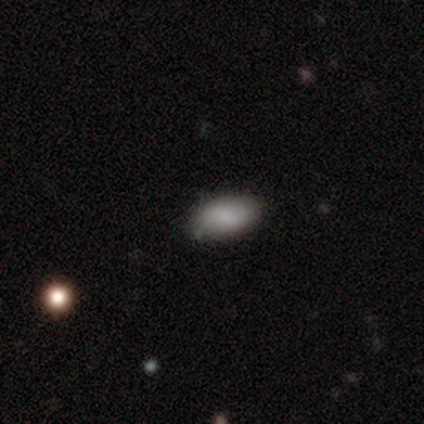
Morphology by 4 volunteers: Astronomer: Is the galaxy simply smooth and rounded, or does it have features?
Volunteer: smooth — 100%.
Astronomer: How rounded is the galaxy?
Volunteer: in between — 100%.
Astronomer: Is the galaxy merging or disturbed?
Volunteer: none — 100%.